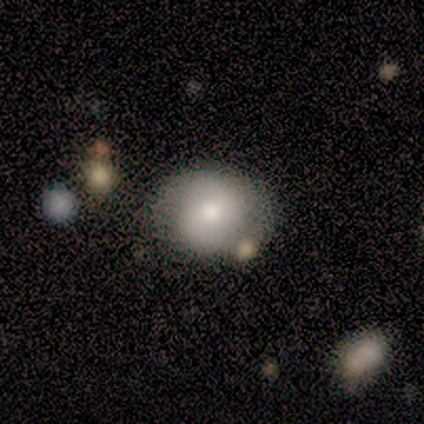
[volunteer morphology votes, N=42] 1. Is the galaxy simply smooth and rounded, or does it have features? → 62% featured or disk, 33% smooth, 5% star or artifact.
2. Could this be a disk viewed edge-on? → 100% no, 0% yes.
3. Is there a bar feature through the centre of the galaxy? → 46% no, 35% weak, 19% strong.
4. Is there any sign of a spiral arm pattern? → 65% yes, 35% no.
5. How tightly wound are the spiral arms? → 47% tight, 41% medium, 12% loose.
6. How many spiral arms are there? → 94% 2, 6% can't tell, 0% 1, 0% 3, 0% 4, 0% more than 4.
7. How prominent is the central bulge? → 62% moderate, 23% large, 15% small, 0% dominant, 0% none.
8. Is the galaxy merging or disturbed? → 68% none, 20% minor disturbance, 8% major disturbance, 5% merger.